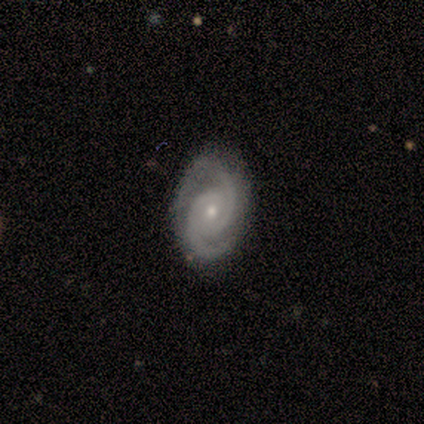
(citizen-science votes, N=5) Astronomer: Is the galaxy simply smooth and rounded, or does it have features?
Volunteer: featured or disk — 100%.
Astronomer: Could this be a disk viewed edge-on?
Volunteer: no — 100%.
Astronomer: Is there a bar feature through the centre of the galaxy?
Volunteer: no — 100%.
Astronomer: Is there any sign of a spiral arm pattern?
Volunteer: yes — 100%.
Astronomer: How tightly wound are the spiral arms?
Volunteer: tight — 40%, tied with medium at 40%.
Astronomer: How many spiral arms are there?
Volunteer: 2 — 100%.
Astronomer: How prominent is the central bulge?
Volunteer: moderate — 80%.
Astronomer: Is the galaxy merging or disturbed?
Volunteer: none — 80%.